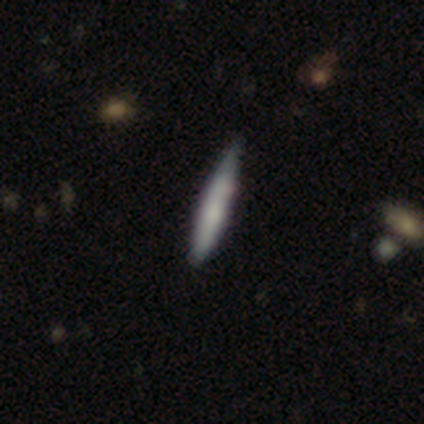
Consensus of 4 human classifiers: Smooth or featured? 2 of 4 (50%, tied with featured or disk) said smooth. How rounded? 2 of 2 (100%) said cigar-shaped. Merging? 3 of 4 (75%) said minor disturbance.